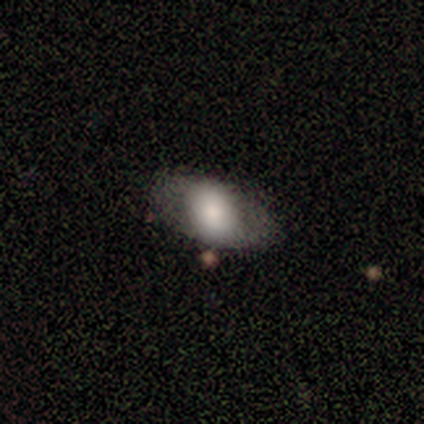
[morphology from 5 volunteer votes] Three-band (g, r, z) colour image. It shows a smooth galaxy with no disk features (80%) that is in between round and cigar-shaped (100%). Merging: none (80%).